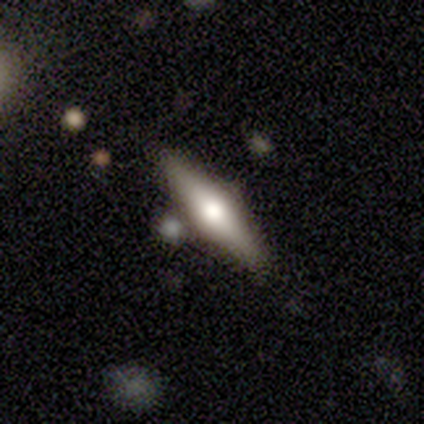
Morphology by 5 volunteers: This is likely a featured or disk galaxy (60%). It is clearly viewed edge-on (100%). Edge-on bulge: likely rounded (67%). Merging: likely none (60%).